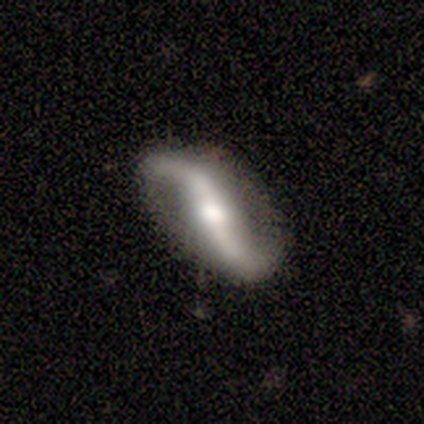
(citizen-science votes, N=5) This appears to be a featured or disk galaxy (100%) with a strong bar (67%), 2 (100%) loose (100%) spiral arms (100%) and a large central bulge (33%, tied with moderate and small). Merging: none (80%).